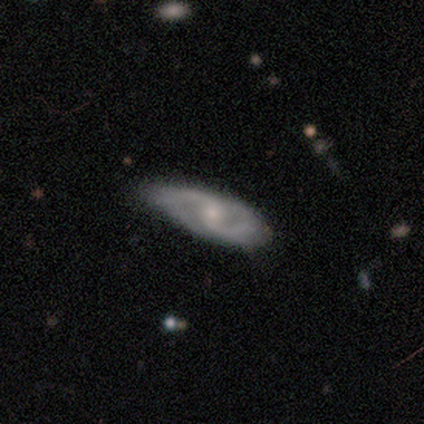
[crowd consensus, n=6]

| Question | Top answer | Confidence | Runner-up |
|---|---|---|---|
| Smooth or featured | featured or disk | 67% | smooth (33%) |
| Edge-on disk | no | 75% | yes (25%) |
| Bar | no | 67% | weak (33%) |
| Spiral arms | yes | 67% | no (33%) |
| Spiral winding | tight | 50% | tied: medium (50%) |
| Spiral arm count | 2 | 100% | — |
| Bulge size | moderate | 67% | small (33%) |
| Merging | none | 83% | minor disturbance (17%) |